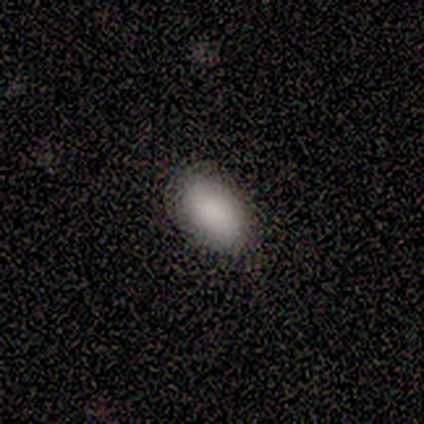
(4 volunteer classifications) Smooth or featured: smooth — 100%
How rounded: in between — 100%
Merging: none — 100%